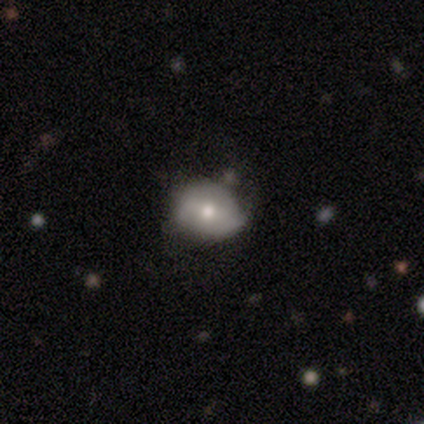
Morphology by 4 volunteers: smooth-or-featured: smooth: 50% (tied) | featured or disk: 50% (tied) | star or artifact: 0%
  how-rounded: in between: 100% | round: 0% | cigar-shaped: 0%
  merging: none: 50% (tied) | minor disturbance: 50% (tied) | major disturbance: 0% | merger: 0%